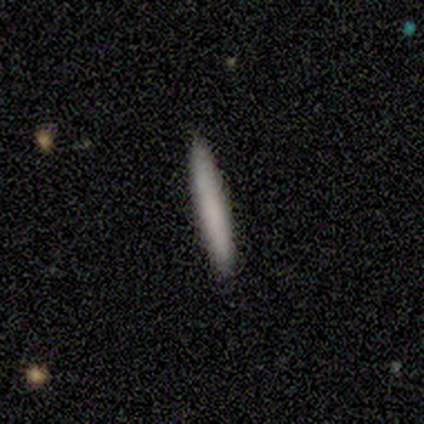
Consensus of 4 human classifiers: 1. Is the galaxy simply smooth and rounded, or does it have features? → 100% smooth, 0% featured or disk, 0% star or artifact.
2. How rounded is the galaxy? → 100% cigar-shaped, 0% round, 0% in between.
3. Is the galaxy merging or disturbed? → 100% none, 0% minor disturbance, 0% major disturbance, 0% merger.